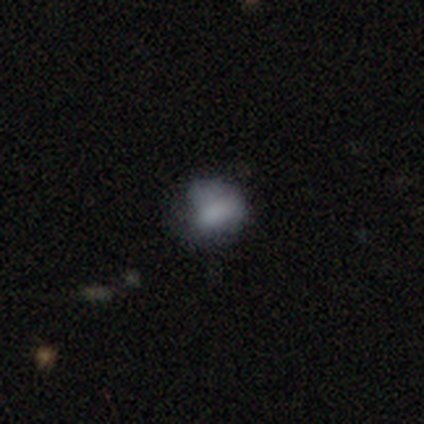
smooth 64%, featured or disk 31%, star or artifact 5%. Down the decision tree: how rounded — in between (60%); merging — none (49%).